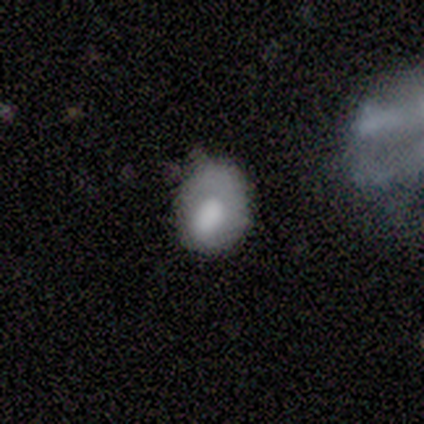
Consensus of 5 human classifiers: Smooth or featured? smooth (100%)
How rounded? round (60%)
Merging? none (40%, tied with major disturbance)